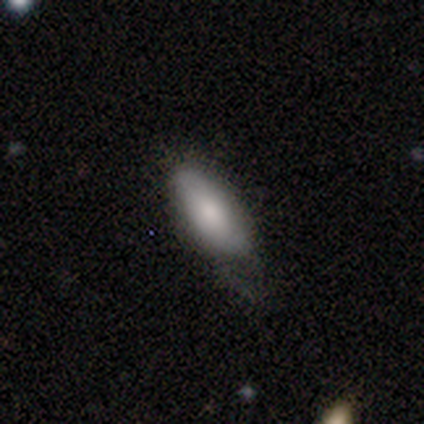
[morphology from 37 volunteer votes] Q: Smooth or featured?
A: smooth (78%); runner-up: featured or disk (14%)
Q: How rounded?
A: in between (79%); runner-up: cigar-shaped (21%)
Q: Merging?
A: none (47%); tied with: minor disturbance (47%)